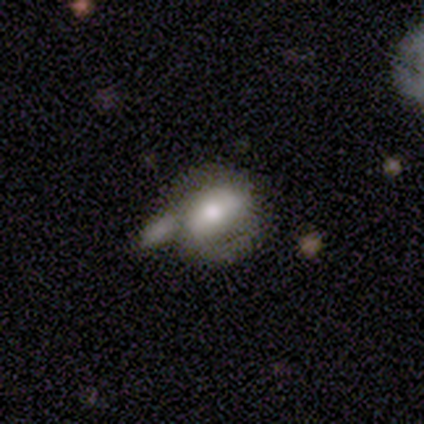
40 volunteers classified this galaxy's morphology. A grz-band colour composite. It shows a featured or disk galaxy (50%) with no bar (45%), 2 (55%) medium (55%) spiral arms (55%) and a moderate central bulge (65%). Merging: merger (34%).